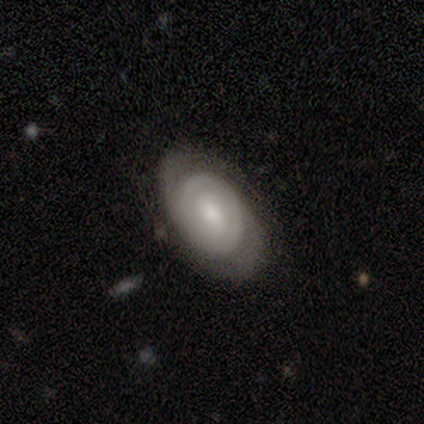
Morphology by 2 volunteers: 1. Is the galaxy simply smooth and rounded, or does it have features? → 50% smooth (tied), 50% featured or disk (tied), 0% star or artifact.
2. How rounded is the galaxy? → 100% in between, 0% round, 0% cigar-shaped.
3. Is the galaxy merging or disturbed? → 50% none (tied), 50% minor disturbance (tied), 0% major disturbance, 0% merger.